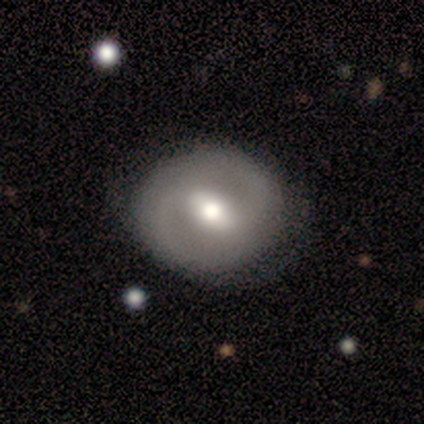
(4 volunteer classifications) A featured or disk galaxy (50%) with a weak bar (100%), no spiral arms (100%) and a moderate central bulge (100%).

Vote fractions:
- Smooth or featured? featured or disk: 50% / smooth: 25% / star or artifact: 25%
- Edge-on disk? no: 100% / yes: 0%
- Bar? weak: 100% / strong: 0% / no: 0%
- Spiral arms? no: 100% / yes: 0%
- Bulge size? moderate: 100% / dominant: 0% / large: 0% / small: 0% / none: 0%
- Merging? none: 100% / minor disturbance: 0% / major disturbance: 0% / merger: 0%